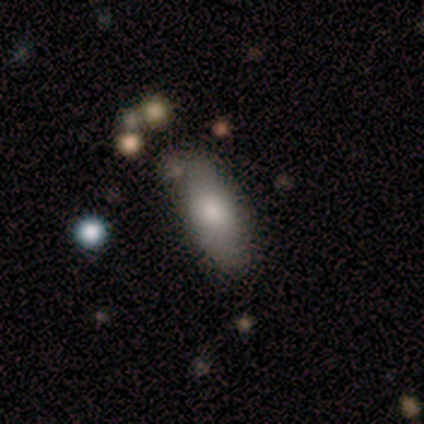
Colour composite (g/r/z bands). It shows a smooth galaxy with no disk features (80%) that is in between round and cigar-shaped (100%). Merging: none (75%).